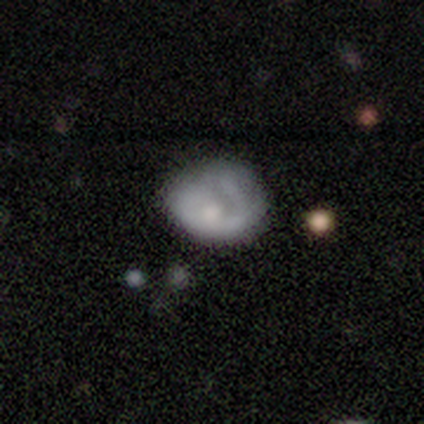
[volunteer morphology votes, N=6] Overall: smooth (67%; featured or disk 33%). How rounded: round (50%, tied with in between). Merging: none (83%).